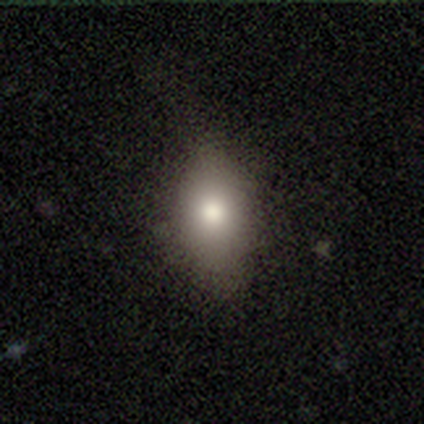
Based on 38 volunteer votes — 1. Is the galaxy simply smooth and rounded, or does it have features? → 84% smooth, 13% featured or disk, 3% star or artifact.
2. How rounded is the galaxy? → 81% in between, 19% round, 0% cigar-shaped.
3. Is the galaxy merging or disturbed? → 57% none, 32% minor disturbance, 11% major disturbance, 0% merger.